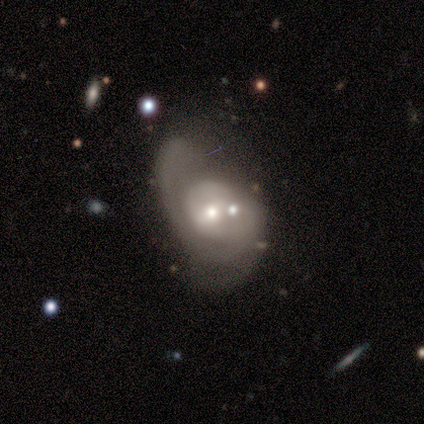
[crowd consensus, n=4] This appears to be a featured or disk galaxy (75%) with no bar (67%), 2 (67%) medium (100%) spiral arms (100%) and a moderate central bulge (67%). Merging: major disturbance (75%).